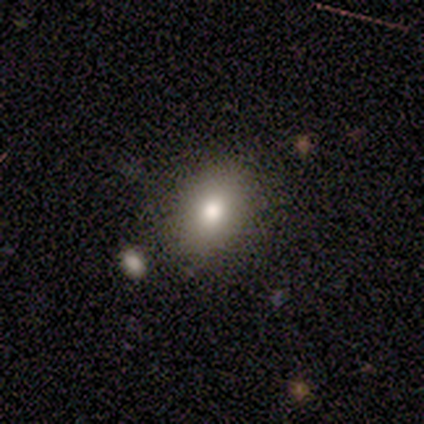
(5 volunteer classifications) A smooth galaxy with no disk features (80%) that is round (50%, tied with in between).

Vote fractions:
- Smooth or featured? smooth: 80% / star or artifact: 20% / featured or disk: 0%
- How rounded? round: 50% (tied) / in between: 50% (tied) / cigar-shaped: 0%
- Merging? none: 100% / minor disturbance: 0% / major disturbance: 0% / merger: 0%